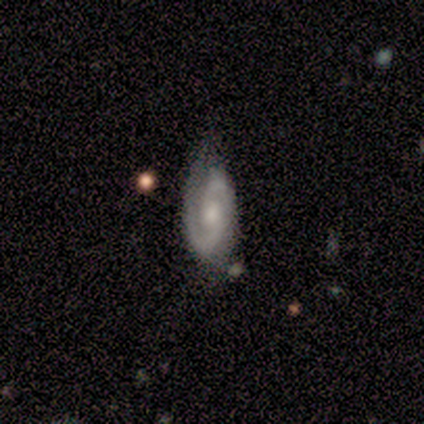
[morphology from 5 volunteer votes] smooth-or-featured: featured or disk: 80% | smooth: 20% | star or artifact: 0%
  disk-edge-on: no: 100% | yes: 0%
    bar: no: 75% | weak: 25% | strong: 0%
    has-spiral-arms: yes: 75% | no: 25%
      spiral-winding: tight: 67% | medium: 33% | loose: 0%
      spiral-arm-count: 2: 100% | 1: 0% | 3: 0% | 4: 0% | more than 4: 0% | can't tell: 0%
    bulge-size: moderate: 50% | small: 25% | none: 25% | dominant: 0% | large: 0%
  merging: none: 60% | minor disturbance: 20% | major disturbance: 20% | merger: 0%